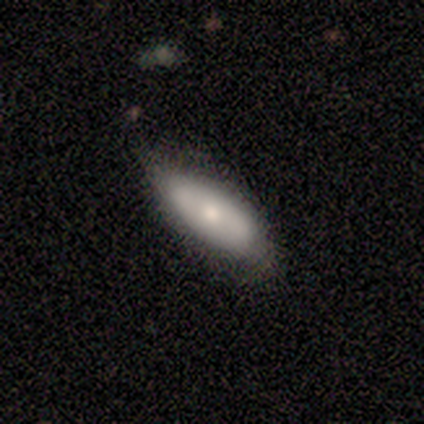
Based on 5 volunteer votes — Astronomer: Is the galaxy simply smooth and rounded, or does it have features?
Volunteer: smooth — 80%.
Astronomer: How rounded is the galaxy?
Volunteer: in between — 75%.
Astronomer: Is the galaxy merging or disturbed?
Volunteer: none — 60% (runner-up: minor disturbance, 40%).